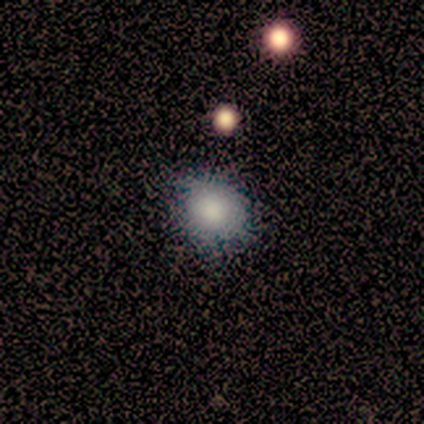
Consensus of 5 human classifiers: Q: Smooth or featured?
A: smooth (100%)
Q: How rounded?
A: round (80%); runner-up: in between (20%)
Q: Merging?
A: none (100%)